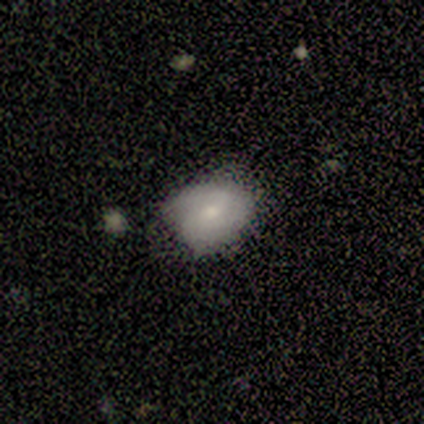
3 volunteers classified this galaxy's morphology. Smooth or featured? 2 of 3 (67%) said featured or disk. Edge-on disk? 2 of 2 (100%) said no. Bar? 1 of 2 (50%, tied with no) said strong. Spiral arms? 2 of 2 (100%) said yes. Spiral winding? 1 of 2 (50%, tied with loose) said medium. Spiral arm count? 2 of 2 (100%) said can't tell. Bulge size? 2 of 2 (100%) said small. Merging? 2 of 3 (67%) said none.